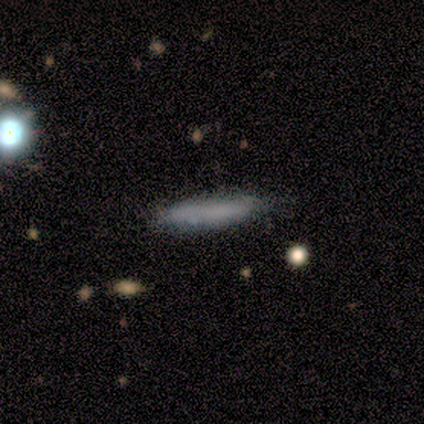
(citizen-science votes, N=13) Smooth or featured? 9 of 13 (69%) said smooth. How rounded? 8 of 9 (89%) said cigar-shaped. Merging? 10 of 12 (83%) said none.